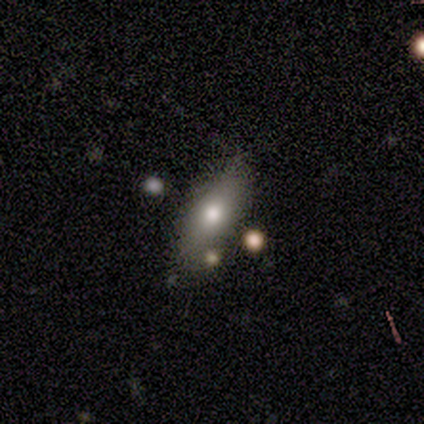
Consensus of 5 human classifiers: Smooth or featured? 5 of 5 (100%) said smooth. How rounded? 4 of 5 (80%) said in between. Merging? 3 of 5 (60%) said none.